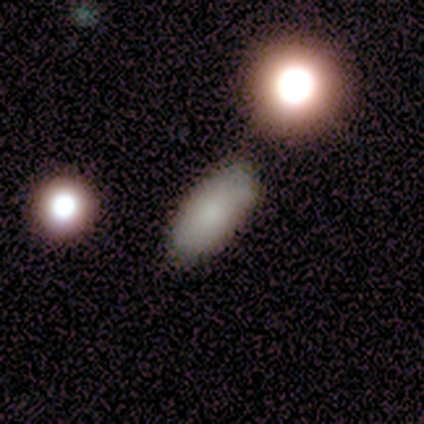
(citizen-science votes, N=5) Overall: smooth (80%). How rounded: in between (100%). Merging: none (80%).